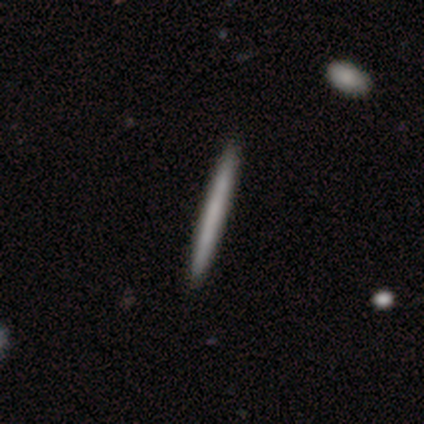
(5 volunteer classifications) smooth 60%, featured or disk 40%, star or artifact 0%. Down the decision tree: how rounded — cigar-shaped (100%); merging — none (100%).